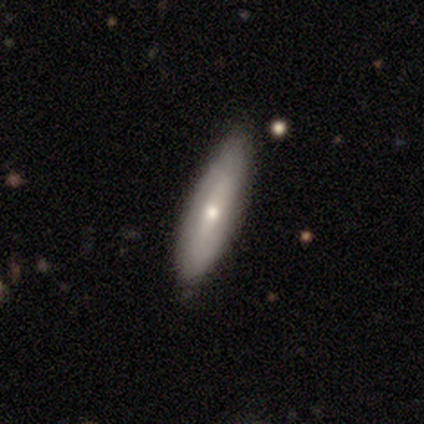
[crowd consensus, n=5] Smooth or featured?
  - smooth: 40% * (tied)
  - featured or disk: 40% * (tied)
  - star or artifact: 20%
How rounded?
  - round: 50% * (tied)
  - cigar-shaped: 50% * (tied)
  - in between: 0%
Merging?
  - none: 50% *
  - minor disturbance: 25%
  - major disturbance: 25%
  - merger: 0%